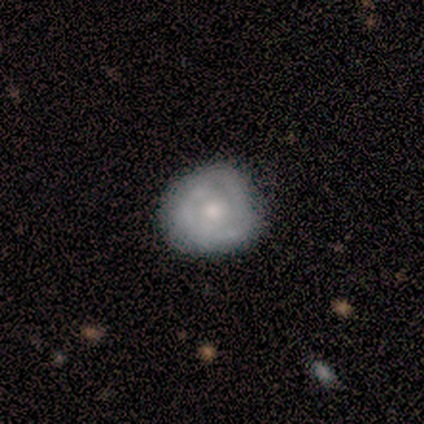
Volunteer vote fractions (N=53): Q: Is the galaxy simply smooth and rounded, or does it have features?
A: featured or disk — 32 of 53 (60%).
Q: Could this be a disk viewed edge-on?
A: no — 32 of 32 (100%).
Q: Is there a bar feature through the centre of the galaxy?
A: no — 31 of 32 (97%).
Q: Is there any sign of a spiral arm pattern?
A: yes — 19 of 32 (59%).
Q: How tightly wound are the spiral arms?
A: tight — 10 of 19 (53%).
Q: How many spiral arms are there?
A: can't tell — 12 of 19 (63%).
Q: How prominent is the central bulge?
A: moderate — 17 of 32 (53%).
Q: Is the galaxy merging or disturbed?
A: none — 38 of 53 (72%).